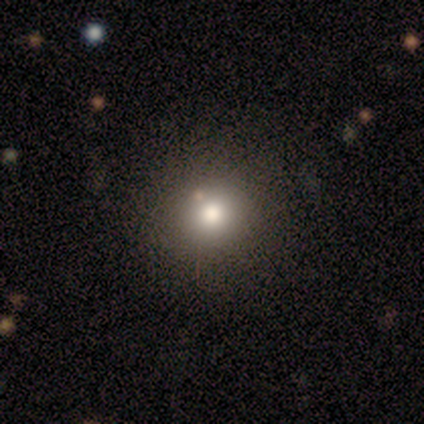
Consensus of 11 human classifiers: Smooth or featured?
  - smooth: 91% *
  - star or artifact: 9%
  - featured or disk: 0%
How rounded?
  - round: 90% *
  - in between: 10%
  - cigar-shaped: 0%
Merging?
  - none: 80% *
  - minor disturbance: 10%
  - major disturbance: 10%
  - merger: 0%